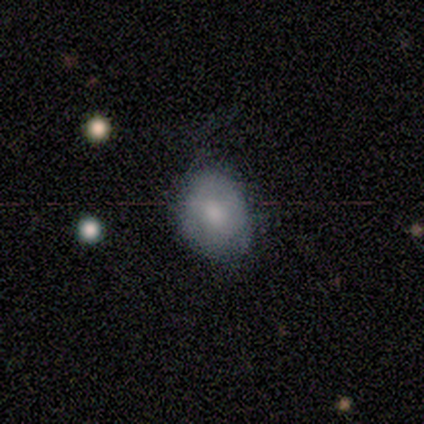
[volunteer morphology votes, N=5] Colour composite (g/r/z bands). It shows a smooth galaxy with no disk features (80%) that is round (50%, tied with in between). Merging: none (80%).